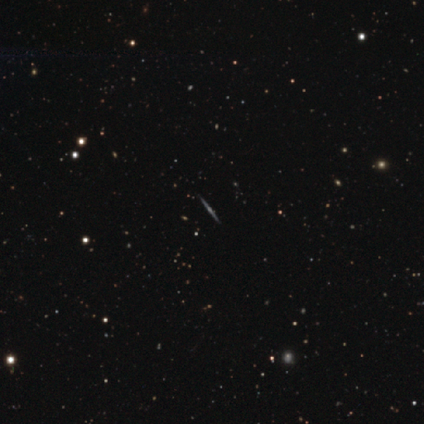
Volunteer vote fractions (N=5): smooth-or-featured: featured or disk: 100% | smooth: 0% | star or artifact: 0%
  disk-edge-on: yes: 100% | no: 0%
    edge-on-bulge: none: 60% | rounded: 40% | boxy: 0%
  merging: none: 100% | minor disturbance: 0% | major disturbance: 0% | merger: 0%